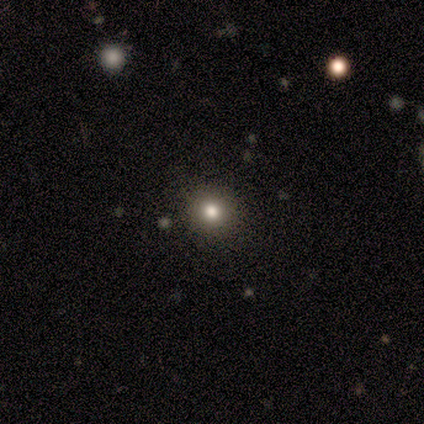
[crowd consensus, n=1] This is clearly a smooth galaxy (100%). How rounded: clearly round (100%). Merging: clearly none (100%).